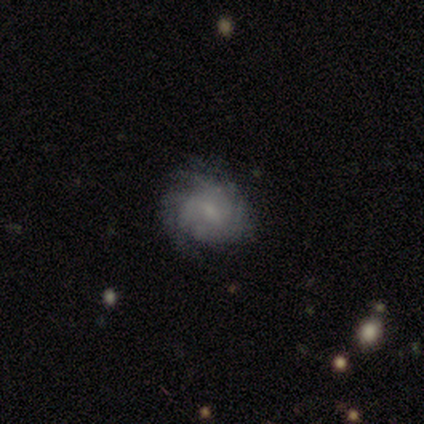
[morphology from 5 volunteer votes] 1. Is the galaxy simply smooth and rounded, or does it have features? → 60% featured or disk, 40% smooth, 0% star or artifact.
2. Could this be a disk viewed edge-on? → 100% no, 0% yes.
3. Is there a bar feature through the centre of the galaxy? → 67% weak, 33% no, 0% strong.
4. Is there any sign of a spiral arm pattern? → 100% yes, 0% no.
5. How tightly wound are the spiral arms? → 67% tight, 33% medium, 0% loose.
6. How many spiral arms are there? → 67% can't tell, 33% more than 4, 0% 1, 0% 2, 0% 3, 0% 4.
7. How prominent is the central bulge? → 67% small, 33% moderate, 0% dominant, 0% large, 0% none.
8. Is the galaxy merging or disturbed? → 40% none (tied), 40% minor disturbance (tied), 20% major disturbance, 0% merger.